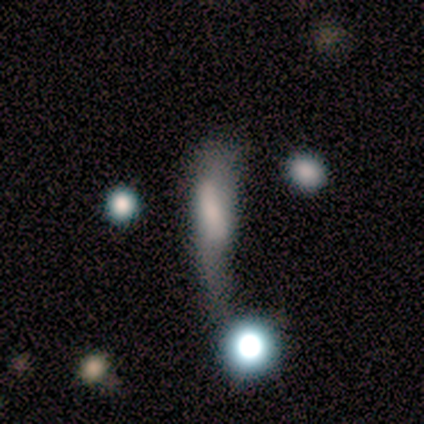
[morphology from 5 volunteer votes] Smooth or featured: smooth — 80% (featured or disk — 20%)
How rounded: cigar-shaped — 50% (round — 25%)
Merging: merger — 40% (none — 20%)